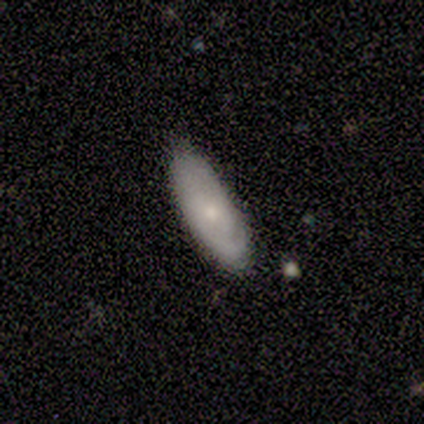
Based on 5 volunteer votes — This is clearly a featured or disk galaxy (80%). It is likely not viewed edge-on (75%). Bar: likely no (67%). Spiral arm pattern: likely yes (67%). Spiral arm count: clearly 2 (100%). Spiral winding: clearly tight (100%). Central bulge: likely small (67%). Merging: clearly none (100%).